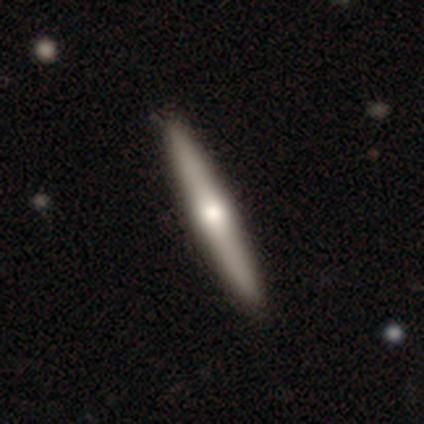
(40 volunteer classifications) Volunteers were most divided on "smooth or featured": featured or disk: 60%, smooth: 32%, star or artifact: 8%. More confident: edge-on disk — yes (96%); merging — none (95%); edge-on bulge — rounded (87%).